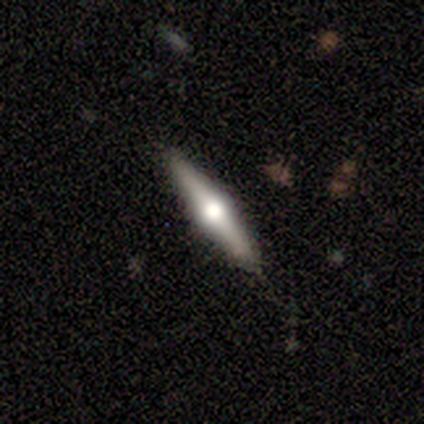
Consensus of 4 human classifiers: This appears to be a featured or disk galaxy (100%) viewed edge-on (100%) with a rounded central bulge (100%). Merging: none (100%).